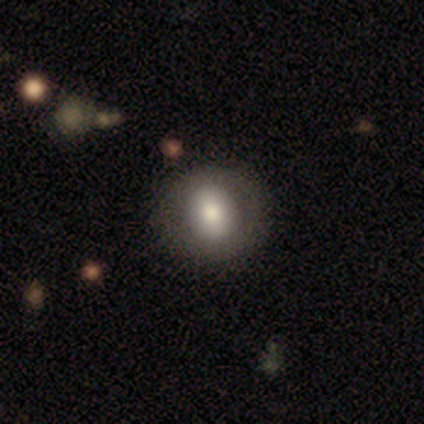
Consensus on every question: smooth or featured — smooth (100%); how rounded — round (100%); merging — none (100%).